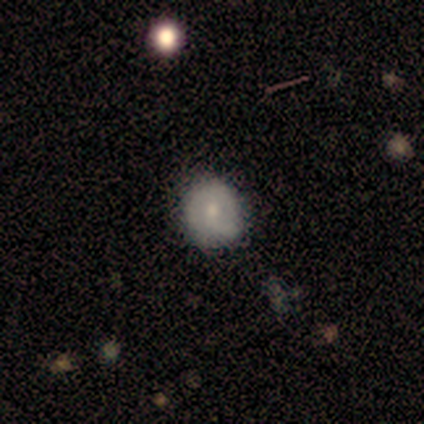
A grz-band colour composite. It shows a featured or disk galaxy (67%) viewed edge-on (50%, tied with no) with a rounded central bulge (100%). Merging: none (67%).